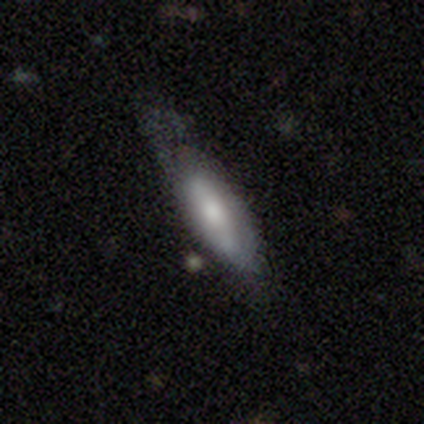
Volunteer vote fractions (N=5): Smooth or featured: smooth — 100%
How rounded: cigar-shaped — 60% (in between — 40%)
Merging: major disturbance — 60% (minor disturbance — 40%)